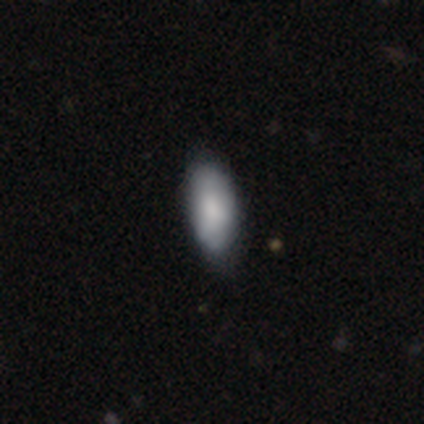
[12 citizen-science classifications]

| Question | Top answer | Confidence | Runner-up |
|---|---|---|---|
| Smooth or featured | smooth | 92% | star or artifact (8%) |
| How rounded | in between | 100% | — |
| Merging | none | 55% | minor disturbance (45%) |